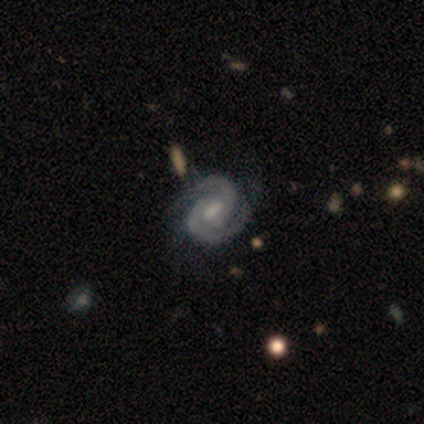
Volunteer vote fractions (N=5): Smooth or featured? 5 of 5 (100%) said featured or disk. Edge-on disk? 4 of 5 (80%) said no. Bar? 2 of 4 (50%) said no. Spiral arms? 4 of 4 (100%) said yes. Spiral winding? 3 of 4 (75%) said tight. Spiral arm count? 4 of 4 (100%) said 2. Bulge size? 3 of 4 (75%) said moderate. Merging? 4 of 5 (80%) said none.